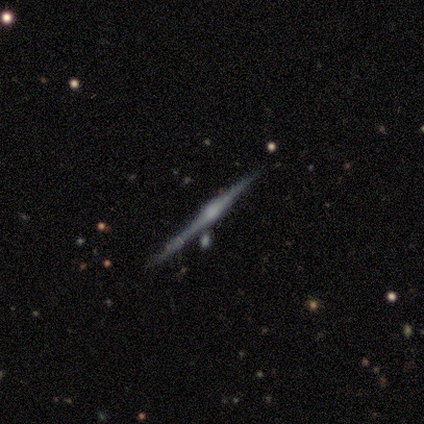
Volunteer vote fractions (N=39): Smooth or featured? 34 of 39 (87%) said featured or disk. Edge-on disk? 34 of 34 (100%) said yes. Edge-on bulge? 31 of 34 (91%) said rounded. Merging? 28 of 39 (72%) said none.